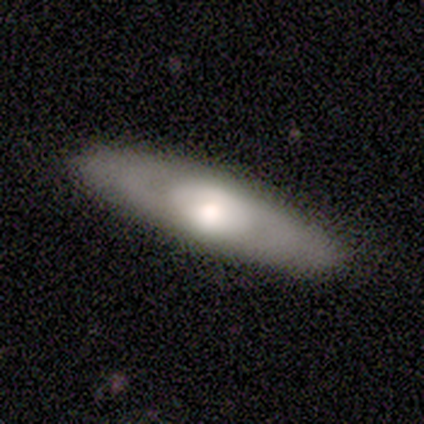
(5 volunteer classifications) Q: Smooth or featured?
A: featured or disk (60%); runner-up: smooth (20%)
Q: Edge-on disk?
A: no (67%); runner-up: yes (33%)
Q: Bar?
A: no (100%)
Q: Spiral arms?
A: yes (100%)
Q: Spiral winding?
A: medium (100%)
Q: Spiral arm count?
A: 2 (100%)
Q: Bulge size?
A: large (100%)
Q: Merging?
A: none (100%)